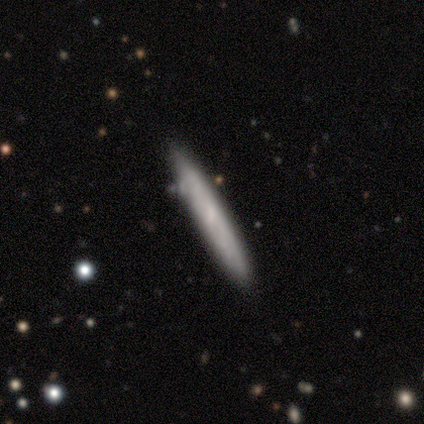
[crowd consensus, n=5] This is clearly a smooth galaxy (100%). How rounded: clearly cigar-shaped (100%). Merging: clearly none (100%).